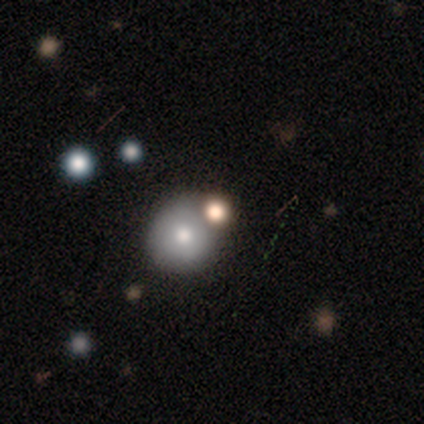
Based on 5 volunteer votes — A smooth galaxy with no disk features (80%) that is round (100%). Merging: none (75%).